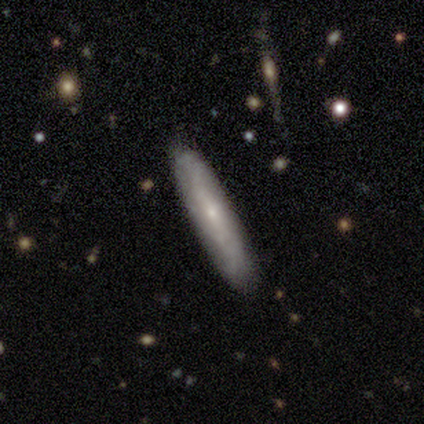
Smooth or featured? smooth (51%)
How rounded? cigar-shaped (90%)
Merging? none (76%)